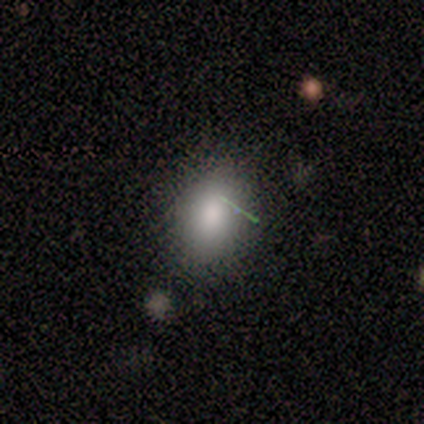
Morphology: type=smooth (80%); roundness=in between (75%); merging=none (40%, tied with minor disturbance).